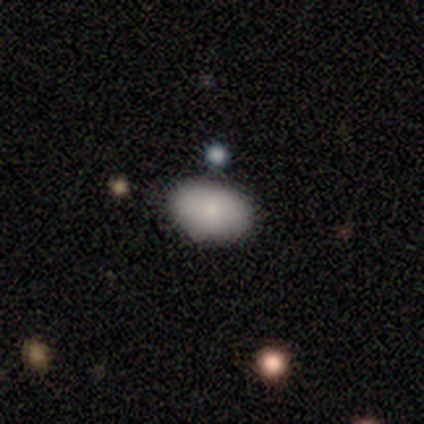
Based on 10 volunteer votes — Volunteers were most divided on "merging": none: 70%, minor disturbance: 30%, major disturbance: 0%, merger: 0%. More confident: smooth or featured — smooth (100%); how rounded — in between (80%).